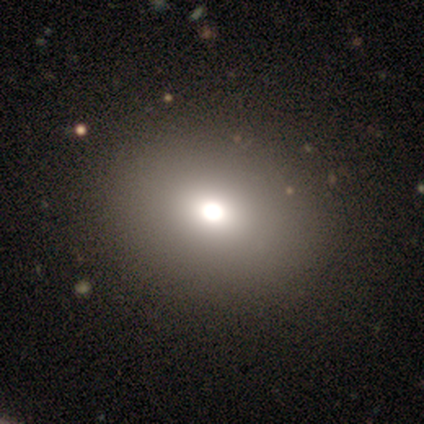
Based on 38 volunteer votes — A smooth galaxy with no disk features (84%) that is in between round and cigar-shaped (50%).

Vote fractions:
- Smooth or featured? smooth: 84% / star or artifact: 11% / featured or disk: 5%
- How rounded? in between: 50% / round: 47% / cigar-shaped: 3%
- Merging? none: 97% / major disturbance: 3% / minor disturbance: 0% / merger: 0%